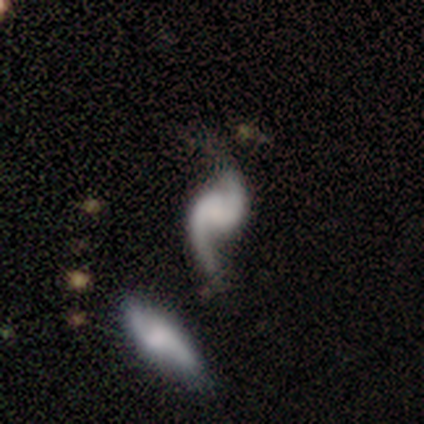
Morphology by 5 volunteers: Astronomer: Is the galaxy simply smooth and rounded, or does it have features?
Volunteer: featured or disk — 100%.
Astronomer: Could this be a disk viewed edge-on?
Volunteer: no — 100%.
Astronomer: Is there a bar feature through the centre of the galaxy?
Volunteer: weak — 60% (runner-up: no, 40%).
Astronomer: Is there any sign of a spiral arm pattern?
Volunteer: yes — 60% (runner-up: no, 40%).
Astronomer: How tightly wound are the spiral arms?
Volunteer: loose — 67%.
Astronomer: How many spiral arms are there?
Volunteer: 2 — 67%.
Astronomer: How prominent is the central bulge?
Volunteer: none — 80%.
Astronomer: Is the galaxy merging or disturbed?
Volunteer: minor disturbance — 60%.